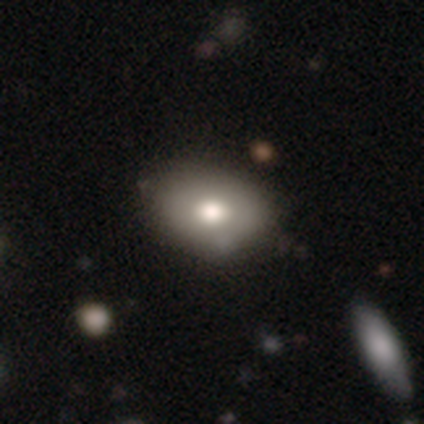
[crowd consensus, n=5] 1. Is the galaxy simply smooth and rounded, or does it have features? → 100% smooth, 0% featured or disk, 0% star or artifact.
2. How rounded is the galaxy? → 60% in between, 40% round, 0% cigar-shaped.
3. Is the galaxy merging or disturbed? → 60% none, 40% minor disturbance, 0% major disturbance, 0% merger.